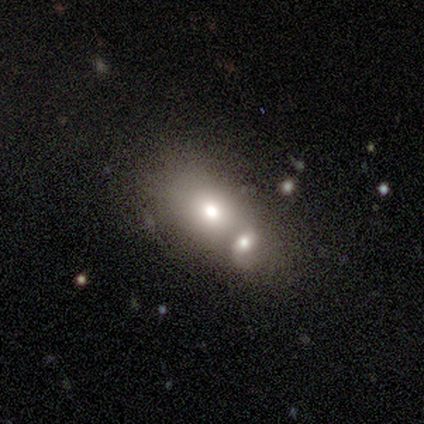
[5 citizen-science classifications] Smooth or featured: smooth — 40% (tied with star or artifact — 40%)
How rounded: round — 50% (tied with in between — 50%)
Merging: merger — 100%